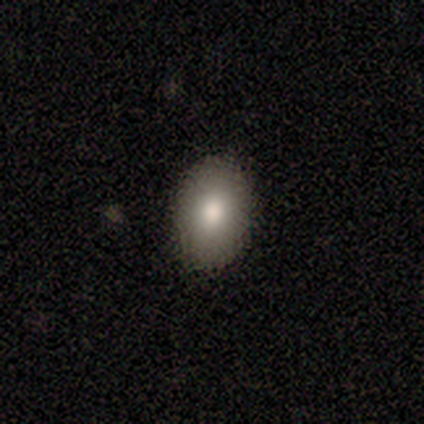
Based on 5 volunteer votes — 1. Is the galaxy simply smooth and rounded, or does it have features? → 80% smooth, 20% featured or disk, 0% star or artifact.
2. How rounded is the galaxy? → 100% in between, 0% round, 0% cigar-shaped.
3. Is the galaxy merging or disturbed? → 100% none, 0% minor disturbance, 0% major disturbance, 0% merger.